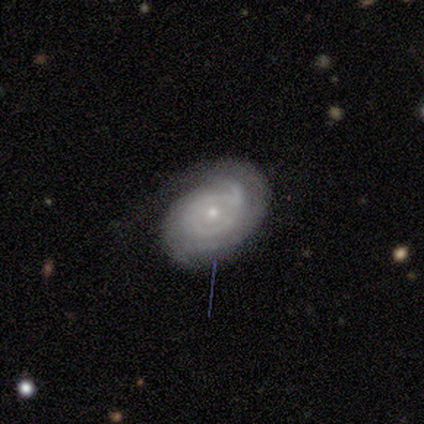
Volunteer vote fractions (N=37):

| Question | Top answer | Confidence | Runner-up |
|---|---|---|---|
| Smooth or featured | featured or disk | 86% | smooth (11%) |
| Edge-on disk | no | 100% | — |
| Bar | no | 88% | weak (12%) |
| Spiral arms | yes | 88% | no (12%) |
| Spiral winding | tight | 68% | medium (29%) |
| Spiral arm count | can't tell | 50% | 2 (32%) |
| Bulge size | small | 75% | moderate (25%) |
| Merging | none | 83% | minor disturbance (11%) |